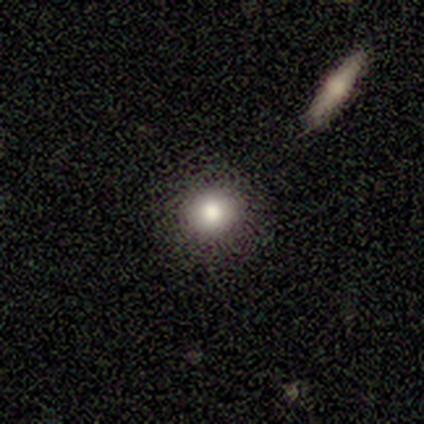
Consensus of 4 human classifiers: Morphology: type=featured or disk (50%); edge-on=no (100%); bar=no (100%); spiral arms=no (100%); bulge=dominant (50%, tied with large); merging=none (100%).